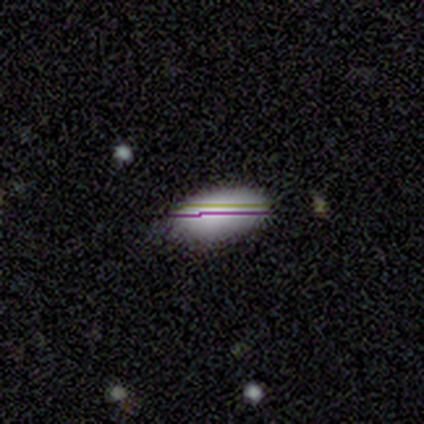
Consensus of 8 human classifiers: This appears to be a smooth galaxy with no disk features (62%) that is in between round and cigar-shaped (100%). Merging: none (80%).